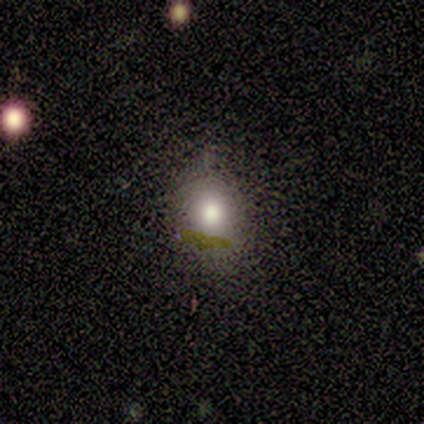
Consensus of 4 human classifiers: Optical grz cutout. It shows a smooth galaxy with no disk features (75%) that is round (67%). Merging: none (67%).